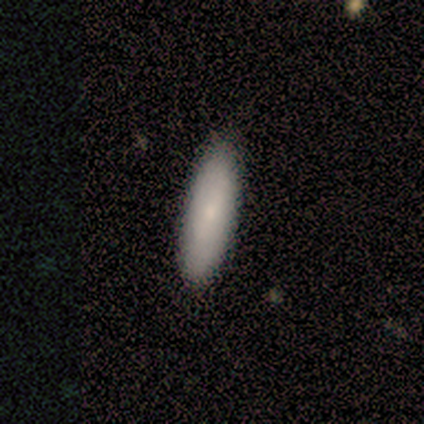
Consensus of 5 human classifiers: This is clearly a smooth galaxy (80%). How rounded: likely cigar-shaped (75%). Merging: clearly none (100%).